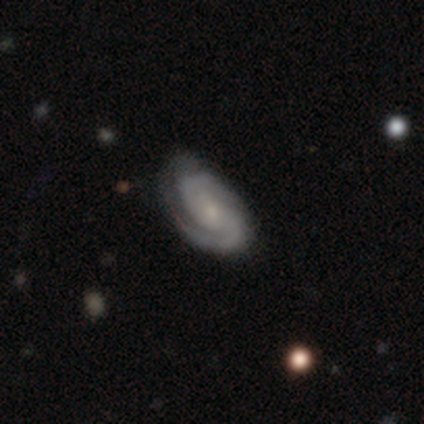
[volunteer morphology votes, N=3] Smooth or featured? 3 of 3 (100%) said featured or disk. Edge-on disk? 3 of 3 (100%) said no. Bar? 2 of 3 (67%) said no. Spiral arms? 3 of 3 (100%) said yes. Spiral winding? 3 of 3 (100%) said tight. Spiral arm count? 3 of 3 (100%) said 2. Bulge size? 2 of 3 (67%) said small. Merging? 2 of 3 (67%) said none.